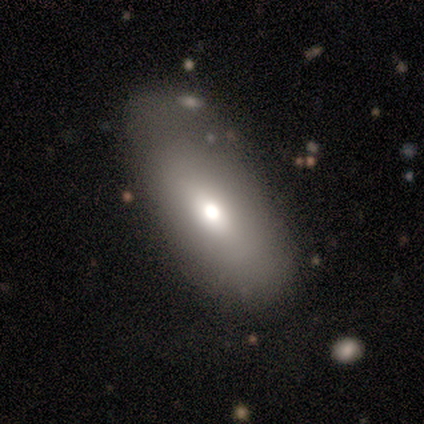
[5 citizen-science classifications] Smooth or featured? smooth (100%)
How rounded? in between (100%)
Merging? none (60%)